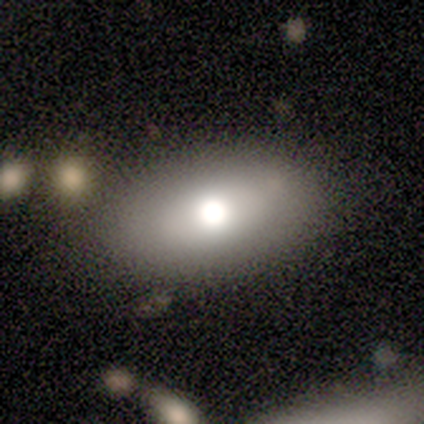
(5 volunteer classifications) smooth_or_featured: smooth (p=0.40) [tied with: star or artifact p=0.40]
how_rounded: in between (p=1.00)
merging: none (p=1.00)